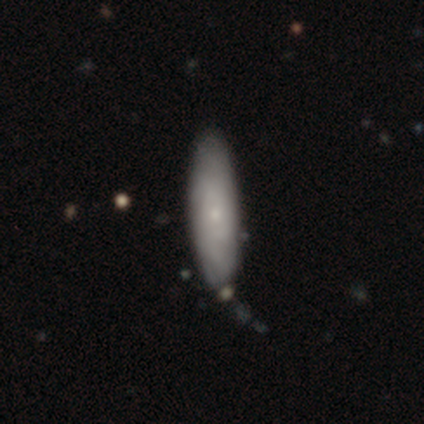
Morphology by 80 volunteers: Smooth or featured?
  - smooth: 56% *
  - featured or disk: 39%
  - star or artifact: 5%
How rounded?
  - cigar-shaped: 53% *
  - in between: 47%
  - round: 0%
Merging?
  - none: 37% *
  - minor disturbance: 8%
  - merger: 4%
  - major disturbance: 3%